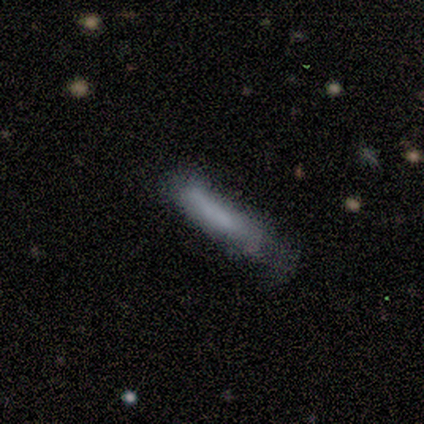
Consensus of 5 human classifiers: This is clearly a smooth galaxy (100%). How rounded: clearly cigar-shaped (100%). Merging: marginally none (40%, tied with major disturbance).